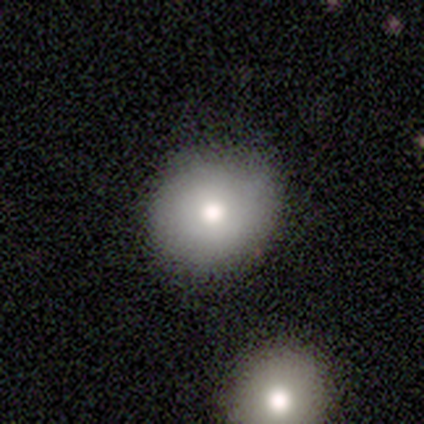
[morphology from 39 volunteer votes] Smooth or featured?
  - smooth: 72% *
  - star or artifact: 15%
  - featured or disk: 13%
How rounded?
  - round: 82% *
  - in between: 18%
  - cigar-shaped: 0%
Merging?
  - none: 82% *
  - minor disturbance: 15%
  - merger: 3%
  - major disturbance: 0%